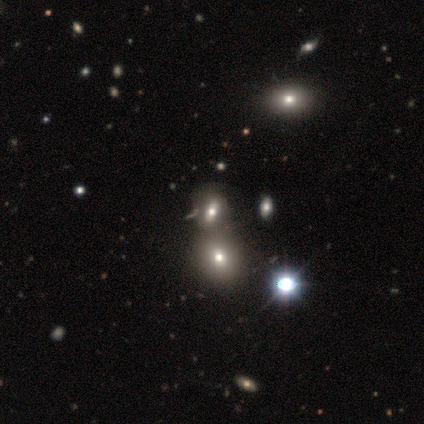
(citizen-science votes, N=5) smooth_or_featured: featured or disk (p=0.60) [alt: smooth p=0.20]
disk_edge_on: no (p=1.00)
bar: no (p=1.00)
has_spiral_arms: no (p=1.00)
bulge_size: large (p=0.67) [alt: small p=0.33]
merging: none (p=0.75) [alt: merger p=0.25]